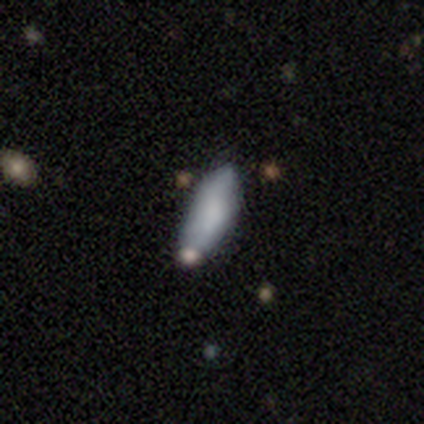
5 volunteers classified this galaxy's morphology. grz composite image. It shows a smooth galaxy with no disk features (100%) that is in between round and cigar-shaped (80%). Merging: none (40%, tied with minor disturbance).